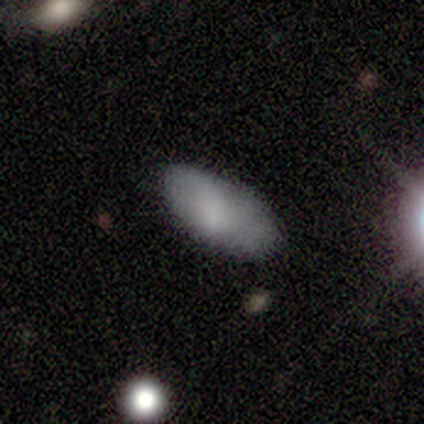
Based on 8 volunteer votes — A smooth galaxy with no disk features (75%) that is in between round and cigar-shaped (100%). Merging: none (88%).